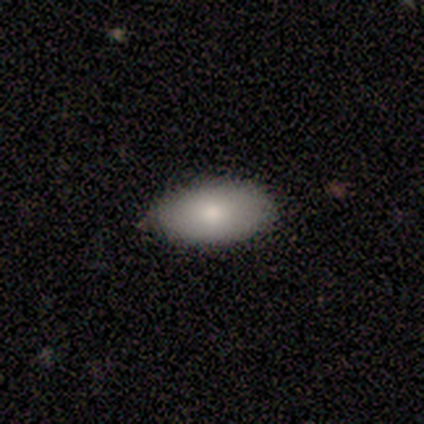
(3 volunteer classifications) Smooth or featured? smooth (67%)
How rounded? in between (100%)
Merging? none (100%)